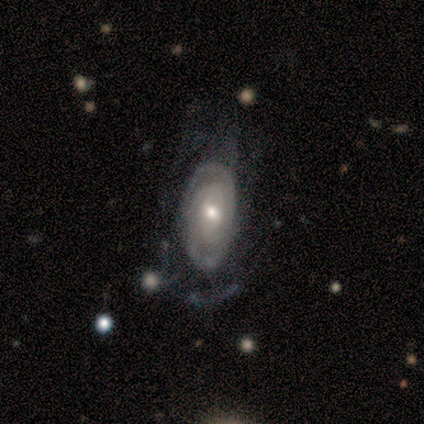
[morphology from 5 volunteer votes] A featured or disk galaxy (80%) with no bar (75%), 2 (67%) tight (33%, tied with medium and loose) spiral arms (75%) and a moderate central bulge (75%). Merging: none (40%, tied with major disturbance).